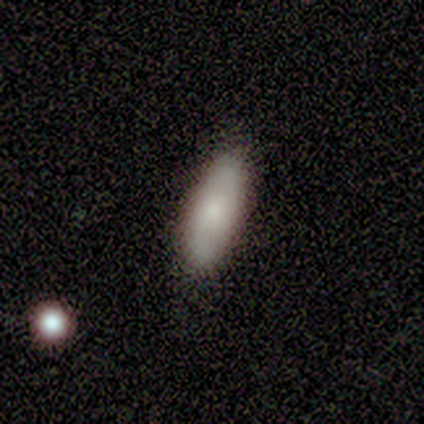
Smooth or featured: smooth — 93% (star or artifact — 7%)
How rounded: in between — 69% (cigar-shaped — 31%)
Merging: none — 77% (major disturbance — 15%)